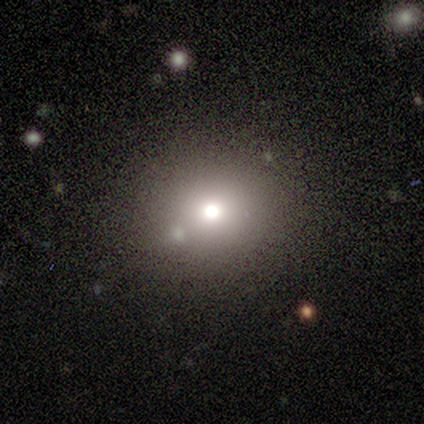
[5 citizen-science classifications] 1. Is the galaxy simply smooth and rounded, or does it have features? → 60% star or artifact, 40% smooth, 0% featured or disk.